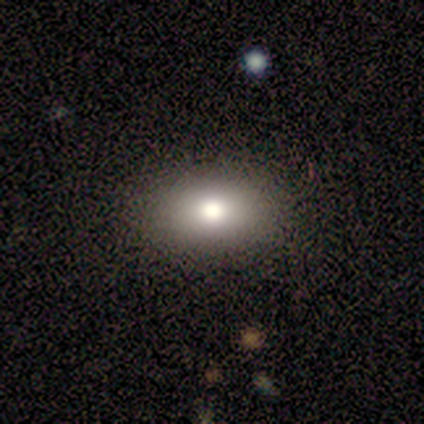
Smooth or featured?
  - smooth: 60% *
  - star or artifact: 40%
  - featured or disk: 0%
How rounded?
  - in between: 100% *
  - round: 0%
  - cigar-shaped: 0%
Merging?
  - none: 67% *
  - minor disturbance: 33%
  - major disturbance: 0%
  - merger: 0%